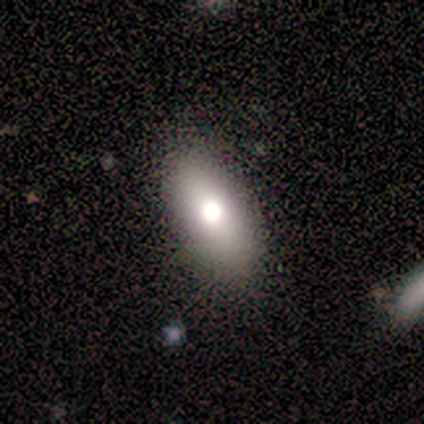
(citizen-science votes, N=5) smooth_or_featured: smooth (p=1.00)
how_rounded: in between (p=1.00)
merging: none (p=1.00)